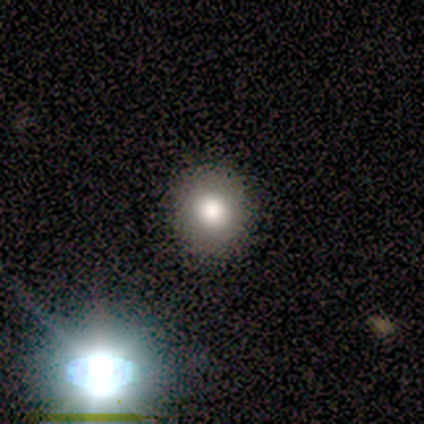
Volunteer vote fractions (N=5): smooth 80%, star or artifact 20%, featured or disk 0%. Down the decision tree: how rounded — round (75%); merging — none (100%).